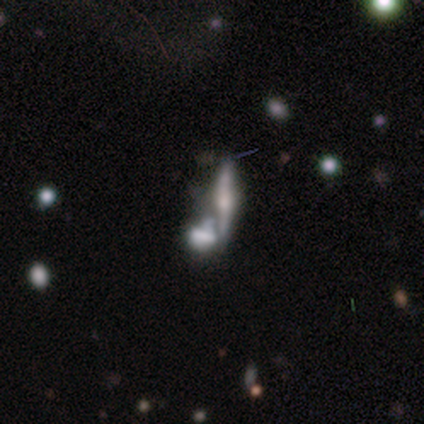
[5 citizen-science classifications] smooth-or-featured: featured or disk: 60% | smooth: 40% | star or artifact: 0%
  disk-edge-on: yes: 67% | no: 33%
    edge-on-bulge: rounded: 100% | boxy: 0% | none: 0%
  merging: merger: 60% | none: 20% | minor disturbance: 20% | major disturbance: 0%